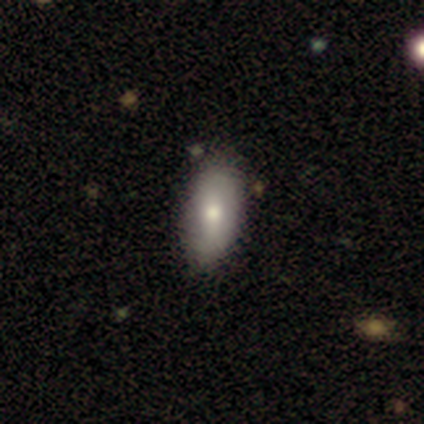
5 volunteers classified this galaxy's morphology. Volunteers were most divided on "smooth or featured": smooth: 80%, featured or disk: 20%, star or artifact: 0%. More confident: how rounded — in between (100%); merging — none (100%).